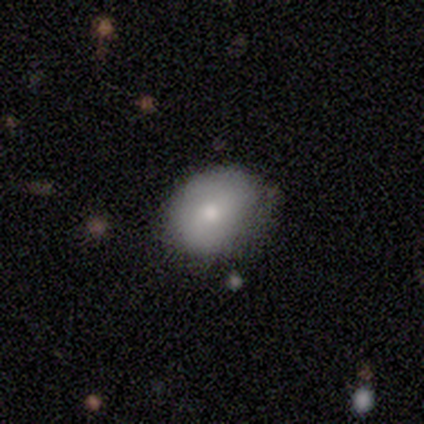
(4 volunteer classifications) smooth_or_featured: featured or disk (p=0.50) [alt: smooth p=0.25]
disk_edge_on: no (p=1.00)
bar: no (p=1.00)
has_spiral_arms: yes (p=0.50) [tied with: no p=0.50]
spiral_winding: medium (p=1.00)
spiral_arm_count: 2 (p=1.00)
bulge_size: moderate (p=0.50) [tied with: small p=0.50]
merging: none (p=0.67) [alt: minor disturbance p=0.33]